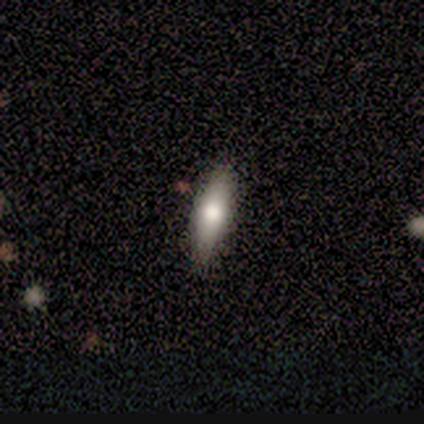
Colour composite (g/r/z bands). It shows a smooth galaxy with no disk features (100%) that is in between round and cigar-shaped (100%). Merging: none (100%).